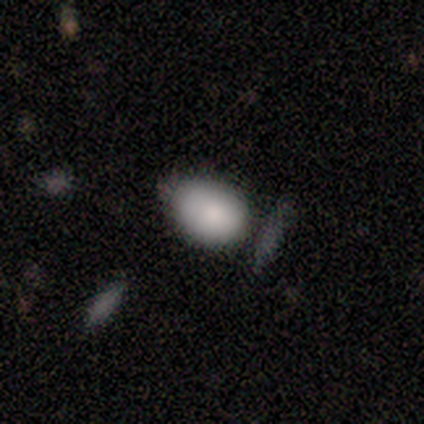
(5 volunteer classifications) Smooth or featured: smooth — 80% (star or artifact — 20%)
How rounded: in between — 75% (round — 25%)
Merging: none — 50% (tied with minor disturbance — 50%)